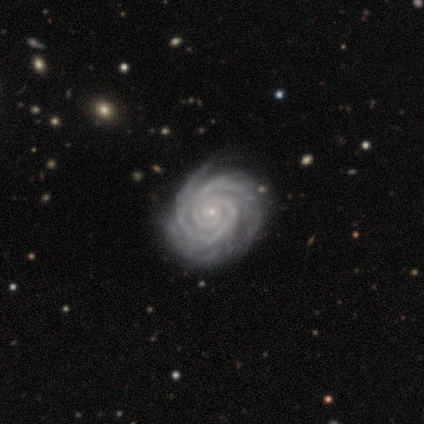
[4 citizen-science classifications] This is clearly a featured or disk galaxy (100%). It is clearly not viewed edge-on (100%). Bar: clearly no (100%). Spiral arm pattern: clearly yes (100%). Spiral arm count: possibly more than 4 (50%). Spiral winding: likely tight (75%). Central bulge: clearly small (100%). Merging: likely none (75%).